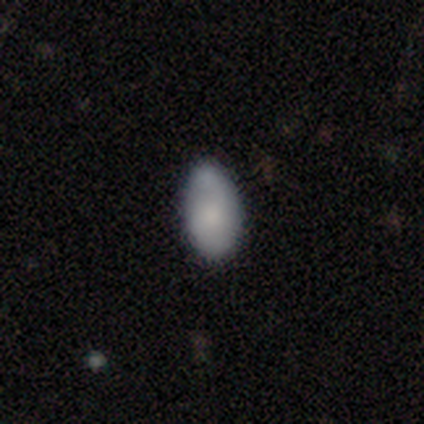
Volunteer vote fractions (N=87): Smooth or featured? 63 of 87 (72%) said smooth. How rounded? 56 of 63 (89%) said in between. Merging? 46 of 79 (58%) said none.